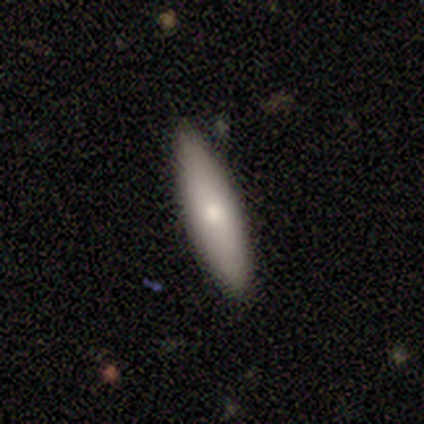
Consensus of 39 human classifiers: Volunteers were most divided on "how rounded": cigar-shaped: 65%, in between: 35%, round: 0%. More confident: merging — none (92%); smooth or featured — smooth (67%).